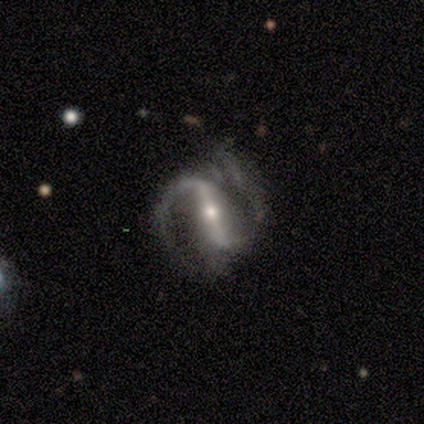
Smooth or featured: featured or disk — 100%
Edge-on disk: no — 80% (yes — 20%)
Bar: strong — 75% (weak — 12%)
Spiral arms: yes — 100%
Spiral winding: loose — 62% (medium — 25%)
Spiral arm count: 2 — 88% (1 — 12%)
Bulge size: moderate — 88% (small — 12%)
Merging: none — 60% (minor disturbance — 20%)